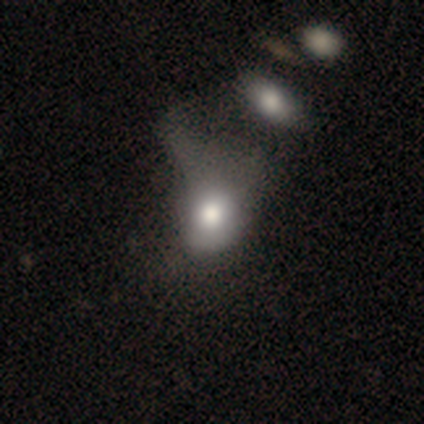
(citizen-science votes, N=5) A smooth galaxy with no disk features (40%, tied with featured or disk) that is in between round and cigar-shaped (100%).

Vote fractions:
- Smooth or featured? smooth: 40% (tied) / featured or disk: 40% (tied) / star or artifact: 20%
- How rounded? in between: 100% / round: 0% / cigar-shaped: 0%
- Merging? minor disturbance: 50% (tied) / merger: 50% (tied) / none: 0% / major disturbance: 0%